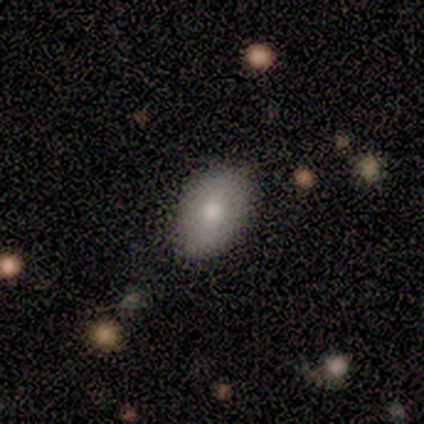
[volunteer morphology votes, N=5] A smooth galaxy with no disk features (80%) that is in between round and cigar-shaped (75%). Merging: none (80%).